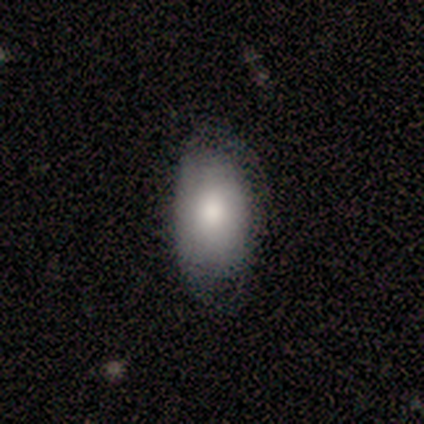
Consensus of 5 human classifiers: Overall: smooth (100%). How rounded: in between (100%). Merging: none (80%).